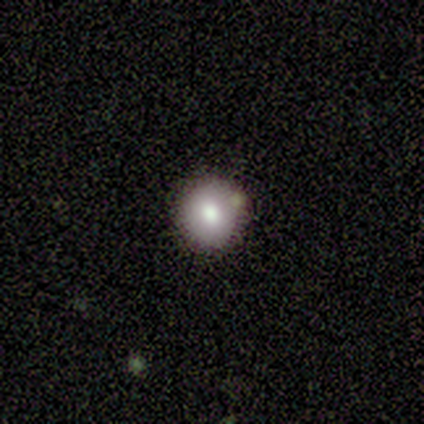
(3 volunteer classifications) smooth 67%, star or artifact 33%, featured or disk 0%. Down the decision tree: how rounded — round (100%); merging — none (100%).